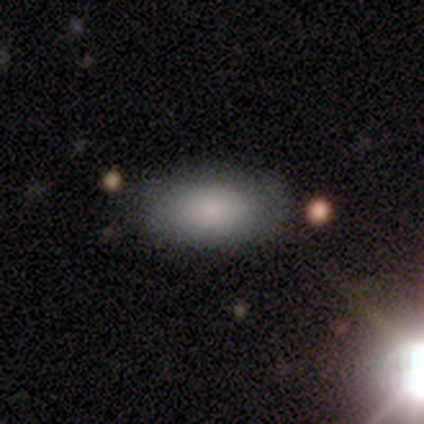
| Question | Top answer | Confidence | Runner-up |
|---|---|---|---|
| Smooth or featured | smooth | 75% | featured or disk (12%) |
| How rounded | in between | 100% | — |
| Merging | none | 100% | — |